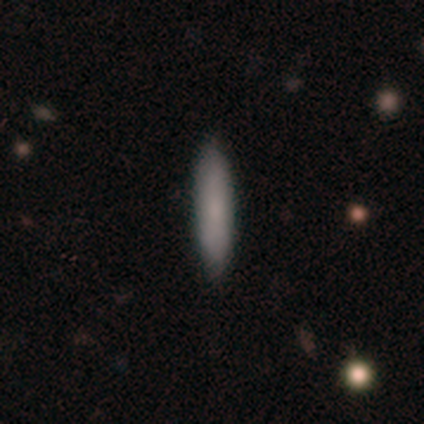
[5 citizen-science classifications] Q: Smooth or featured?
A: smooth (60%); runner-up: star or artifact (40%)
Q: How rounded?
A: cigar-shaped (100%)
Q: Merging?
A: none (100%)